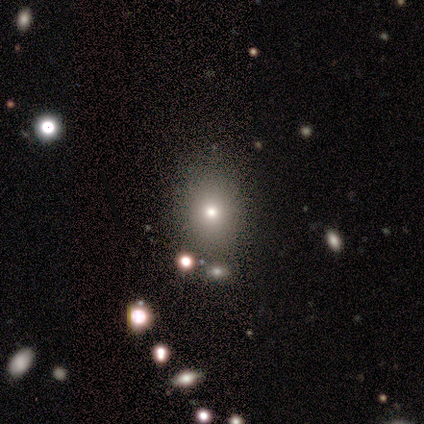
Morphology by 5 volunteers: Overall: smooth (80%). How rounded: in between (100%). Merging: none (50%, tied with minor disturbance).